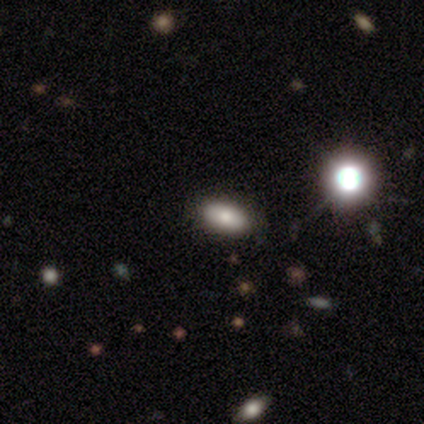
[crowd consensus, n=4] Smooth or featured?
  - smooth: 75% *
  - star or artifact: 25%
  - featured or disk: 0%
How rounded?
  - in between: 100% *
  - round: 0%
  - cigar-shaped: 0%
Merging?
  - none: 100% *
  - minor disturbance: 0%
  - major disturbance: 0%
  - merger: 0%